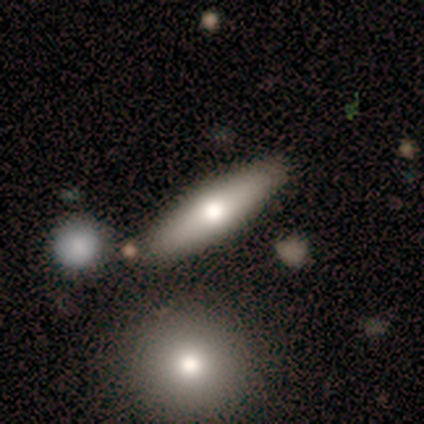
Volunteers were most divided on "bulge size" (2-way tie): large: 50%, moderate: 50%, dominant: 0%, small: 0%, none: 0%. More confident: edge-on disk — no (100%); bar — no (100%); spiral arms — no (100%); merging — none (100%); smooth or featured — featured or disk (50%).